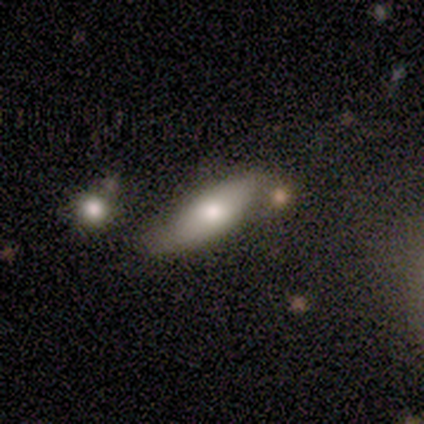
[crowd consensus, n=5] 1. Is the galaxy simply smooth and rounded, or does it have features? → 80% smooth, 20% featured or disk, 0% star or artifact.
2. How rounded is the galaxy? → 50% in between (tied), 50% cigar-shaped (tied), 0% round.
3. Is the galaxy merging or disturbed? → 40% none (tied), 40% minor disturbance (tied), 20% merger, 0% major disturbance.